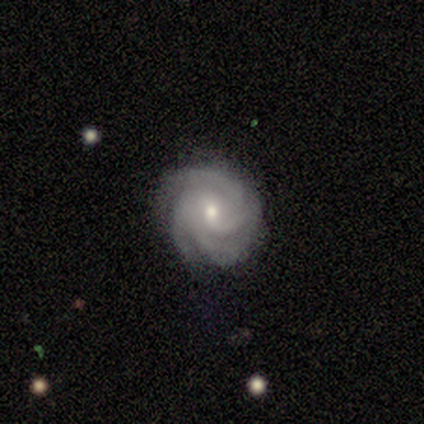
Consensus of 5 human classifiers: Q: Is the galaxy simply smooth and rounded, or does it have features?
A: featured or disk — 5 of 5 (100%).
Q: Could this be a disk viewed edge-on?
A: no — 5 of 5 (100%).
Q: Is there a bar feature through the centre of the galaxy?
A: no — 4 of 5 (80%).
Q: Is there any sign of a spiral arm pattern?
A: yes — 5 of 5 (100%).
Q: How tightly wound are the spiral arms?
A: medium — 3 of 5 (60%).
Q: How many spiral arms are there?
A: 4 — 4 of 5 (80%).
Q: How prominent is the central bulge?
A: moderate — 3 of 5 (60%).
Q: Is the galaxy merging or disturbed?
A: none — 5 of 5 (100%).